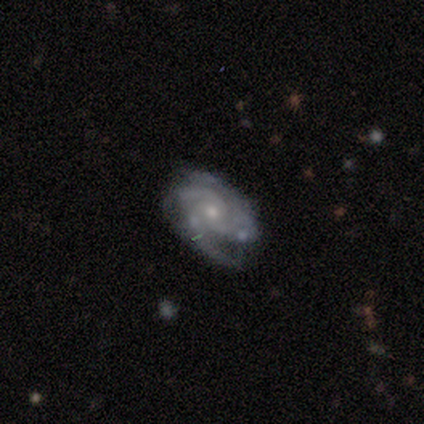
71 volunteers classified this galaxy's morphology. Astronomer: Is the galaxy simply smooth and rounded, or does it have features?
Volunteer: featured or disk — 90%.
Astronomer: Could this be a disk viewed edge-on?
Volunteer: no — 98%.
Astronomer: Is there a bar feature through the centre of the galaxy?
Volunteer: no — 78%.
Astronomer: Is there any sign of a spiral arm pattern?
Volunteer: yes — 97%.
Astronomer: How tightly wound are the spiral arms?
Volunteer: tight — 52% (runner-up: medium, 41%).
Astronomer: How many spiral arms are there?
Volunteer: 3 — 62%.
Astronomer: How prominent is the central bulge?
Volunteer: small — 63%.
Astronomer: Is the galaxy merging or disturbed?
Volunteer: none — 62%.